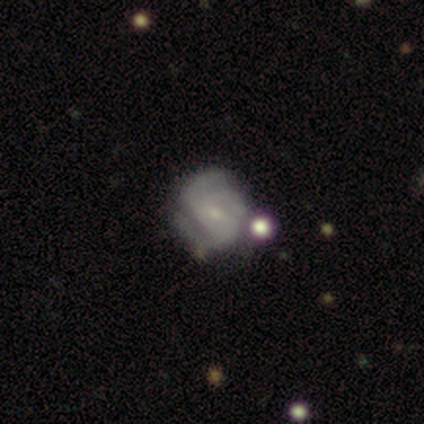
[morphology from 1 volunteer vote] Smooth or featured: smooth — 100%
How rounded: round — 100%
Merging: minor disturbance — 100%